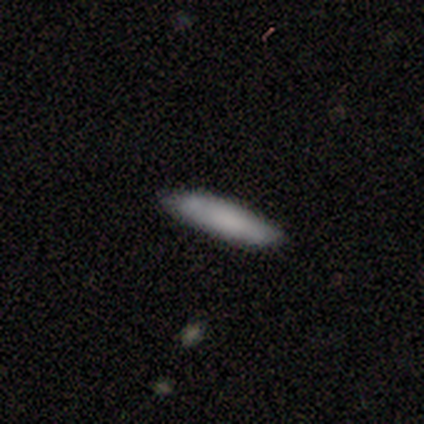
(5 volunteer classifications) Smooth or featured: smooth — 100%
How rounded: cigar-shaped — 100%
Merging: none — 60% (minor disturbance — 40%)